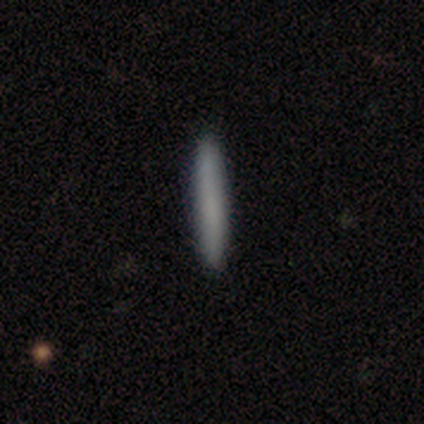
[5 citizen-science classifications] Smooth or featured? smooth (100%)
How rounded? cigar-shaped (100%)
Merging? none (100%)